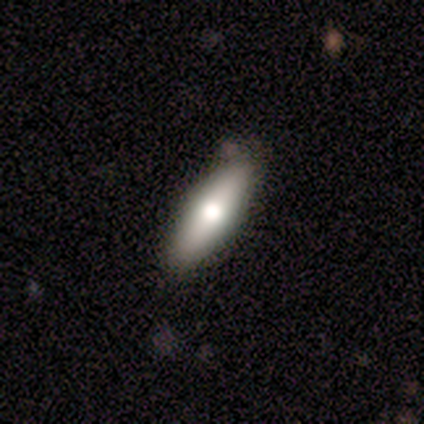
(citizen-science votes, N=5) Smooth or featured: smooth — 80% (featured or disk — 20%)
How rounded: in between — 75% (cigar-shaped — 25%)
Merging: none — 100%